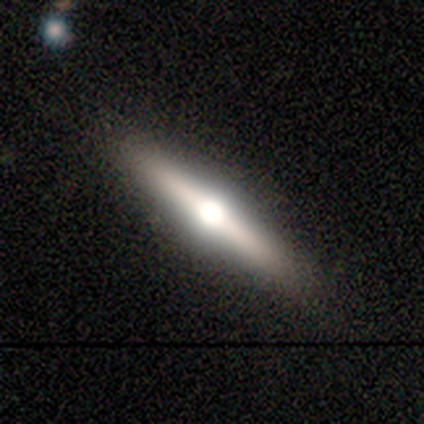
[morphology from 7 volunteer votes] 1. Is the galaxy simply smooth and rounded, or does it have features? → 57% featured or disk, 43% smooth, 0% star or artifact.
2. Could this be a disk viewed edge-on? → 100% yes, 0% no.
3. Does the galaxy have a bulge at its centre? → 100% rounded, 0% boxy, 0% none.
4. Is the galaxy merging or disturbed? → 100% none, 0% minor disturbance, 0% major disturbance, 0% merger.